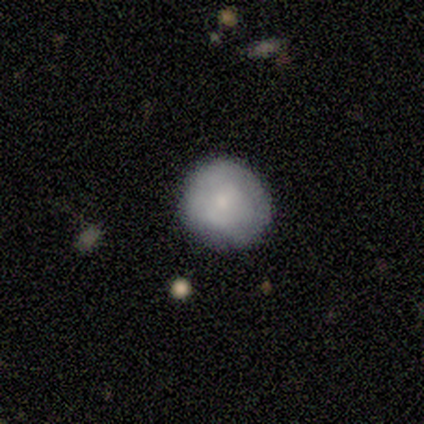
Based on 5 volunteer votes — featured or disk 60%, smooth 40%, star or artifact 0%. Down the decision tree: edge-on disk — no (100%); bar — no (67%); spiral arms — no (67%); bulge size — small (100%); merging — none (60%).